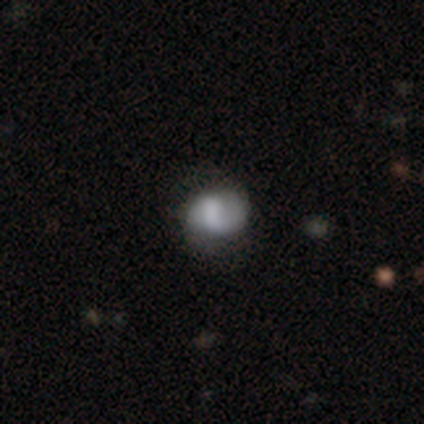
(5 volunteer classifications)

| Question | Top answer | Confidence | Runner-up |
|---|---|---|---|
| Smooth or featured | featured or disk | 60% | smooth (40%) |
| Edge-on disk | no | 100% | — |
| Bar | no | 67% | weak (33%) |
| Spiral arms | no | 67% | yes (33%) |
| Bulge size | moderate | 67% | none (33%) |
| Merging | none | 40% | tied: minor disturbance (40%) |